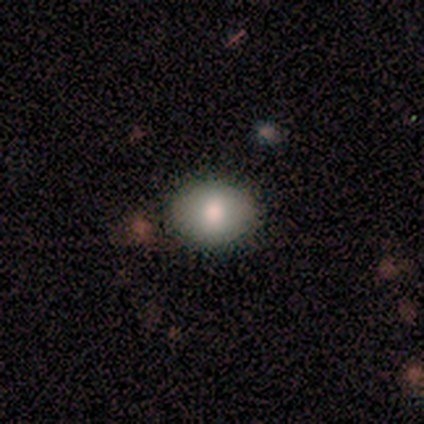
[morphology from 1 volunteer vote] Consensus on every question: smooth or featured — smooth (100%); how rounded — in between (100%); merging — none (100%).